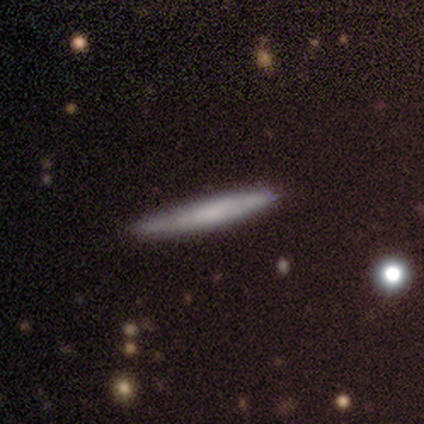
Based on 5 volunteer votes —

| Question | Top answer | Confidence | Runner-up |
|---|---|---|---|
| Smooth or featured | featured or disk | 100% | — |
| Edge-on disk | yes | 100% | — |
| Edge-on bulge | none | 100% | — |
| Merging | none | 40% | tied: minor disturbance (40%) |